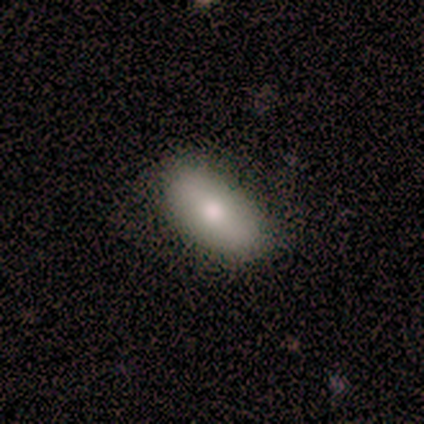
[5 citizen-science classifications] smooth_or_featured: smooth (p=0.80) [alt: featured or disk p=0.20]
how_rounded: in between (p=1.00)
merging: none (p=1.00)